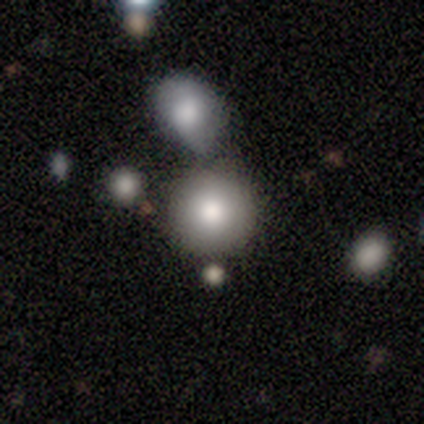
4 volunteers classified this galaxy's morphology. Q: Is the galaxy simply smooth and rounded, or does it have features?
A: smooth — 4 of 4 (100%).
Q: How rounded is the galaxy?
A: round — 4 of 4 (100%).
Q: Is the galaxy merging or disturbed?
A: none — 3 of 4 (75%).